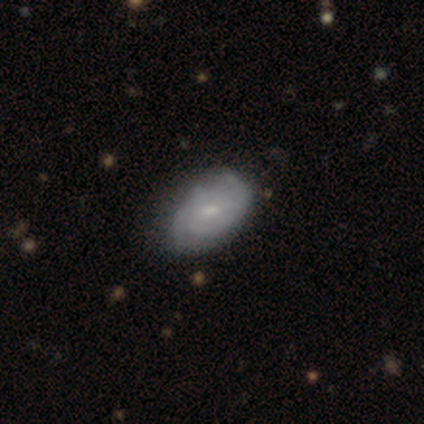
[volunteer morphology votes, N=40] Smooth or featured? featured or disk (75%)
Edge-on disk? no (100%)
Bar? weak (57%)
Spiral arms? yes (87%)
Spiral winding? tight (77%)
Spiral arm count? 2 (58%)
Bulge size? small (53%)
Merging? none (46%)